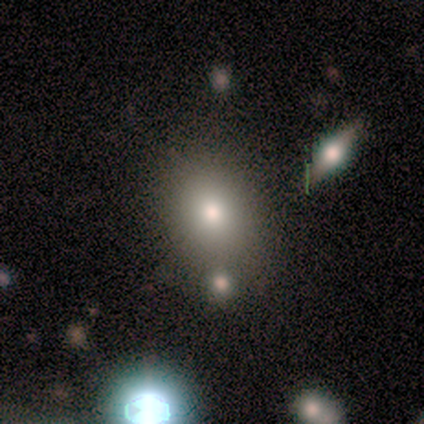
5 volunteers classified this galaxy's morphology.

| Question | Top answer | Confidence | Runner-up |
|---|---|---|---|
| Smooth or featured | smooth | 80% | featured or disk (20%) |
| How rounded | round | 50% | tied: in between (50%) |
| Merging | none | 40% | tied: minor disturbance (40%) |